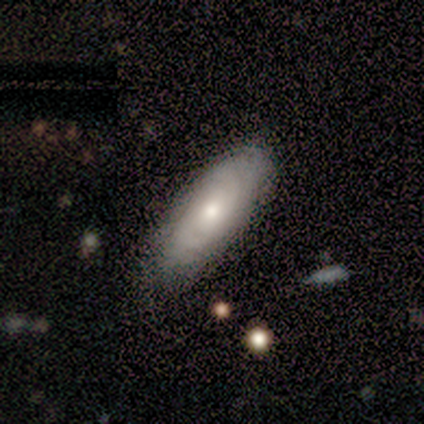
smooth_or_featured: featured or disk (p=0.75) [alt: smooth p=0.25]
disk_edge_on: no (p=1.00)
bar: no (p=1.00)
has_spiral_arms: yes (p=0.67) [alt: no p=0.33]
spiral_winding: tight (p=0.50) [tied with: medium p=0.50]
spiral_arm_count: 2 (p=0.50) [tied with: can't tell p=0.50]
bulge_size: moderate (p=1.00)
merging: none (p=1.00)